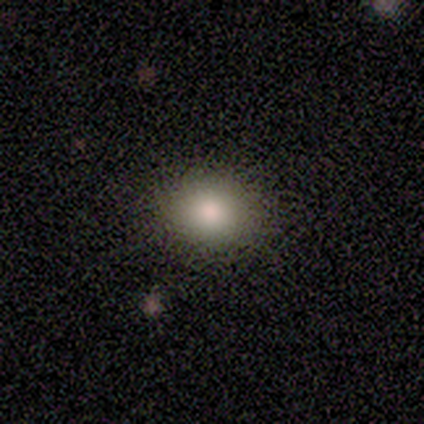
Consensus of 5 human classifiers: A smooth galaxy with no disk features (80%) that is round (50%, tied with in between). Merging: none (100%).